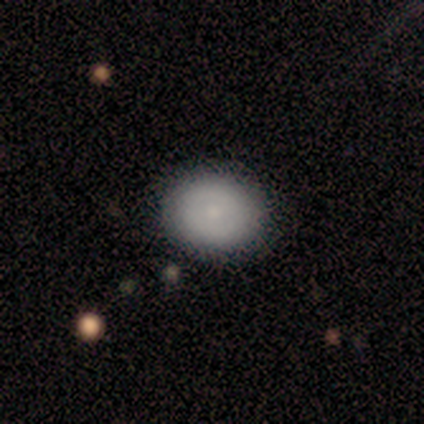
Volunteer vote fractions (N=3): Smooth or featured?
  - smooth: 67% *
  - featured or disk: 33%
  - star or artifact: 0%
How rounded?
  - round: 100% *
  - in between: 0%
  - cigar-shaped: 0%
Merging?
  - none: 67% *
  - major disturbance: 33%
  - minor disturbance: 0%
  - merger: 0%